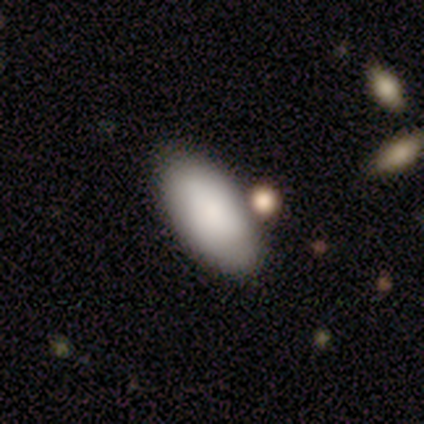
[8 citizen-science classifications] Smooth or featured? smooth (100%)
How rounded? in between (100%)
Merging? none (75%)